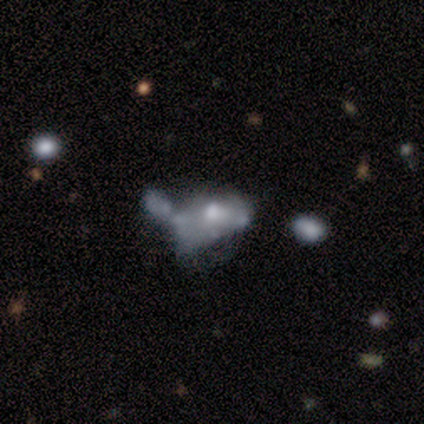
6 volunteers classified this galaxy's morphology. smooth-or-featured: star or artifact: 50% | featured or disk: 33% | smooth: 17%